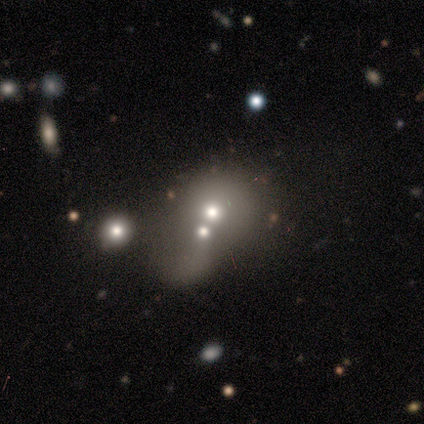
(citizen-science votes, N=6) Smooth or featured?
  - smooth: 50% * (tied)
  - featured or disk: 50% * (tied)
  - star or artifact: 0%
How rounded?
  - in between: 67% *
  - round: 33%
  - cigar-shaped: 0%
Merging?
  - merger: 83% *
  - minor disturbance: 17%
  - none: 0%
  - major disturbance: 0%